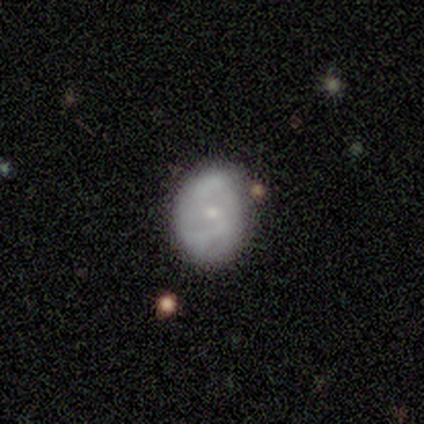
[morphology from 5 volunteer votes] A smooth galaxy with no disk features (60%) that is in between round and cigar-shaped (67%). Merging: none (100%).